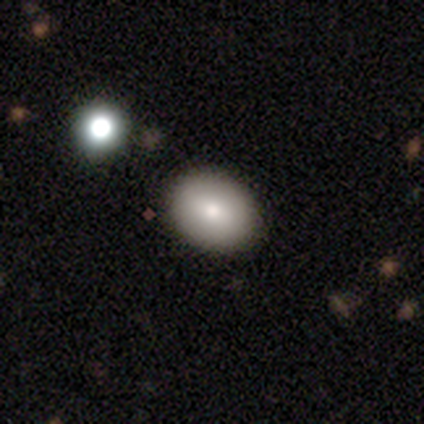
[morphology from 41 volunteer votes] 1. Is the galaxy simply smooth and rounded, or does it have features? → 83% smooth, 12% featured or disk, 5% star or artifact.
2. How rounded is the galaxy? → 85% in between, 15% round, 0% cigar-shaped.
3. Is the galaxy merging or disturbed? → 87% none, 5% minor disturbance, 5% major disturbance, 3% merger.